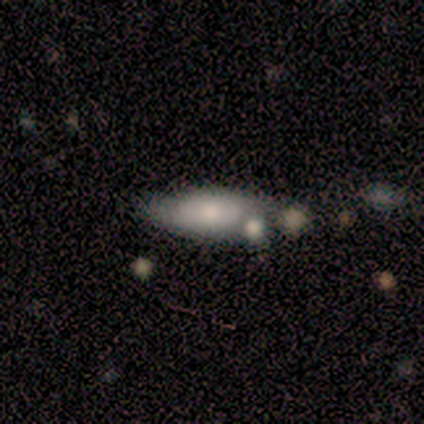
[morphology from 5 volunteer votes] Q: Smooth or featured?
A: featured or disk (60%); runner-up: smooth (40%)
Q: Edge-on disk?
A: no (67%); runner-up: yes (33%)
Q: Bar?
A: no (100%)
Q: Spiral arms?
A: no (100%)
Q: Bulge size?
A: moderate (100%)
Q: Merging?
A: none (80%); runner-up: merger (20%)